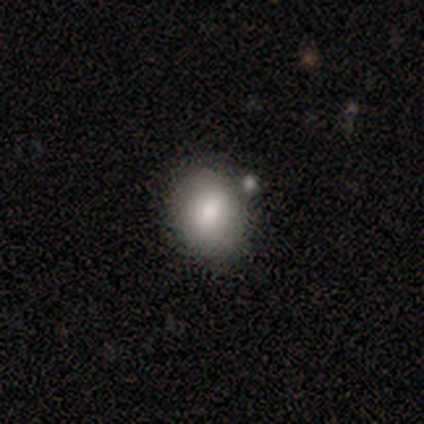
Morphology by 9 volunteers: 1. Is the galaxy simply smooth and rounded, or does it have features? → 100% smooth, 0% featured or disk, 0% star or artifact.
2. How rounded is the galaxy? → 56% round, 44% in between, 0% cigar-shaped.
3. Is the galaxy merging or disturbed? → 89% none, 11% merger, 0% minor disturbance, 0% major disturbance.